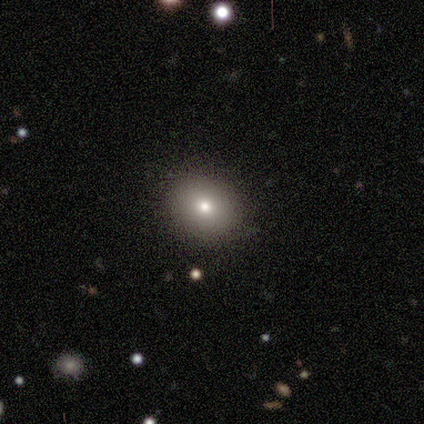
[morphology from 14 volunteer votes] type=smooth (93%); roundness=in between (62%); merging=none (93%).